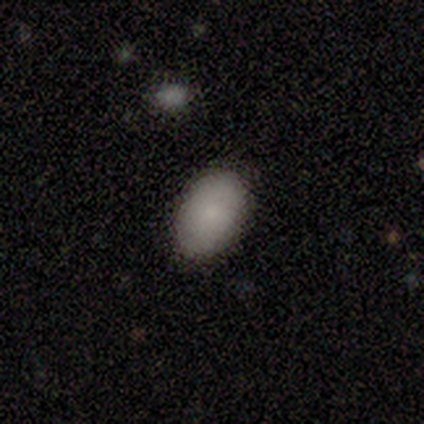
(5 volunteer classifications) This is clearly a smooth galaxy (100%). How rounded: clearly in between (100%). Merging: clearly none (80%).